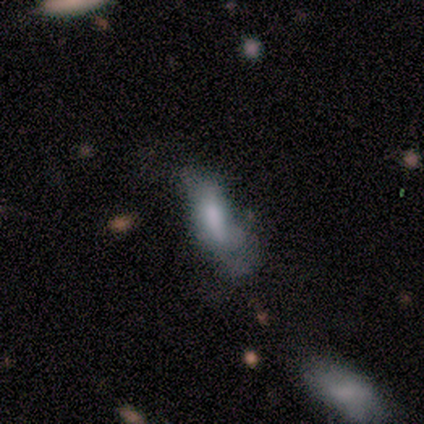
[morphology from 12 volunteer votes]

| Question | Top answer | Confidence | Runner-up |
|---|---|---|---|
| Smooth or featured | smooth | 58% | featured or disk (25%) |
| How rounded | in between | 71% | cigar-shaped (29%) |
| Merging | major disturbance | 80% | none (10%) |